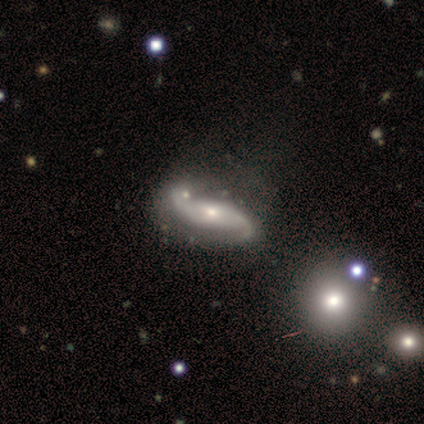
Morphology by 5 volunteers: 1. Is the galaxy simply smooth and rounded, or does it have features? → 80% featured or disk, 20% smooth, 0% star or artifact.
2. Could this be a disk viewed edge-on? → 100% no, 0% yes.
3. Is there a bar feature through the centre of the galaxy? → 50% weak (tied), 50% no (tied), 0% strong.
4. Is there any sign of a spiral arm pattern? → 100% yes, 0% no.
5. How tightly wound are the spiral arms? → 100% loose, 0% tight, 0% medium.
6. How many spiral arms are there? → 75% 2, 25% 1, 0% 3, 0% 4, 0% more than 4, 0% can't tell.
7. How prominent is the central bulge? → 75% small, 25% moderate, 0% dominant, 0% large, 0% none.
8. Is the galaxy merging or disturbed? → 60% none, 20% minor disturbance, 20% major disturbance, 0% merger.